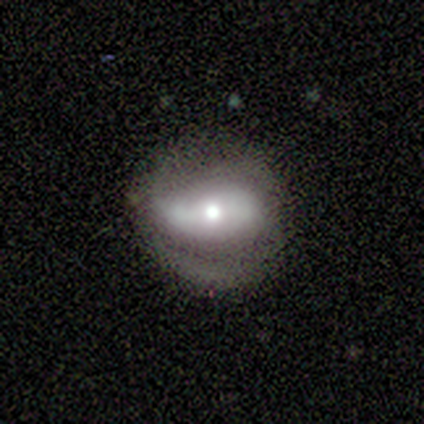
This appears to be a featured or disk galaxy (60%) with a strong bar (39%, tied with no), 2 (86%) medium (43%, tied with loose) spiral arms (61%) and a moderate central bulge (74%). Merging: none (58%).